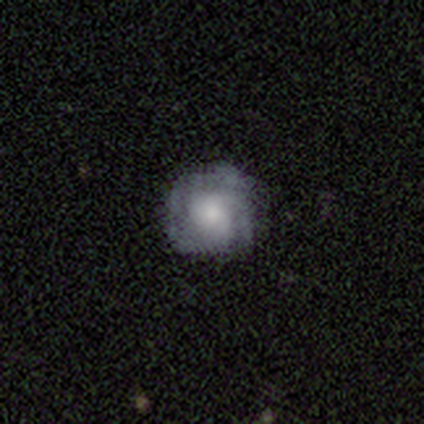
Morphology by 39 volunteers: Smooth or featured?
  - featured or disk: 56% *
  - smooth: 44%
  - star or artifact: 0%
Edge-on disk?
  - no: 100% *
  - yes: 0%
Bar?
  - no: 91% *
  - strong: 5%
  - weak: 5%
Spiral arms?
  - yes: 86% *
  - no: 14%
Spiral winding?
  - tight: 68% *
  - medium: 16%
  - loose: 16%
Spiral arm count?
  - can't tell: 47% *
  - 1: 16%
  - 2: 11%
  - 3: 11%
  - 4: 11%
  - more than 4: 5%
Bulge size?
  - moderate: 41% *
  - small: 27%
  - large: 14%
  - none: 14%
  - dominant: 5%
Merging?
  - none: 74% *
  - minor disturbance: 21%
  - major disturbance: 5%
  - merger: 0%